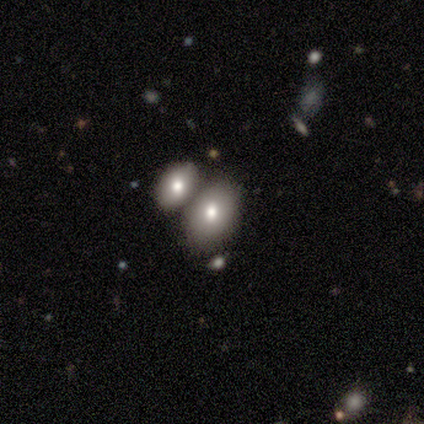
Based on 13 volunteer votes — Q: Smooth or featured?
A: smooth (69%); runner-up: featured or disk (15%)
Q: How rounded?
A: in between (78%); runner-up: round (22%)
Q: Merging?
A: none (45%); tied with: merger (45%)